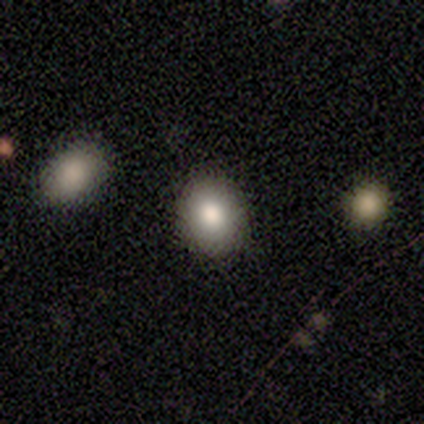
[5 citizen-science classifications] Smooth or featured: smooth — 80% (star or artifact — 20%)
How rounded: in between — 75% (round — 25%)
Merging: none — 75% (minor disturbance — 25%)